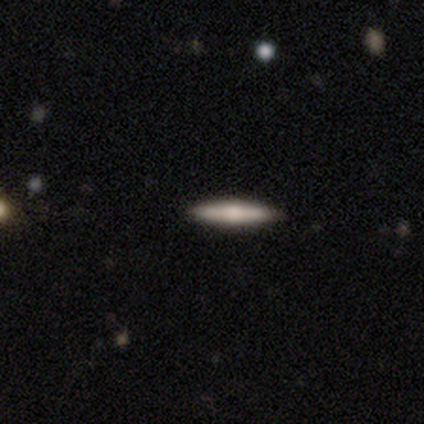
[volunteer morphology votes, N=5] A smooth galaxy with no disk features (60%) that is cigar-shaped (100%).

Vote fractions:
- Smooth or featured? smooth: 60% / featured or disk: 40% / star or artifact: 0%
- How rounded? cigar-shaped: 100% / round: 0% / in between: 0%
- Merging? none: 80% / merger: 20% / minor disturbance: 0% / major disturbance: 0%